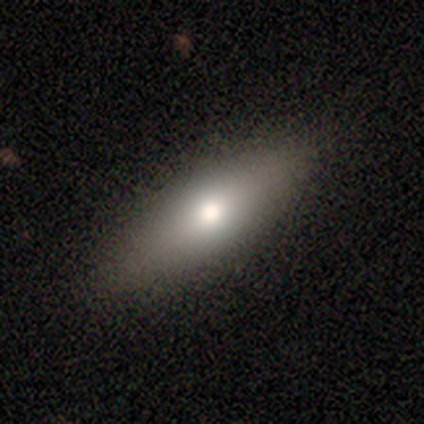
Smooth or featured? 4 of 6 (67%) said smooth. How rounded? 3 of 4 (75%) said in between. Merging? 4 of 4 (100%) said none.